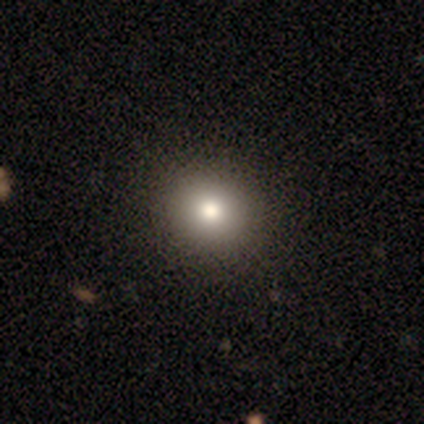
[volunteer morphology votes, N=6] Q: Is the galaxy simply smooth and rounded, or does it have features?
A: smooth — 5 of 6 (83%).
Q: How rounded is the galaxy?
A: round — 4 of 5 (80%).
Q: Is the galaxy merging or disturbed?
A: none — 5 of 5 (100%).